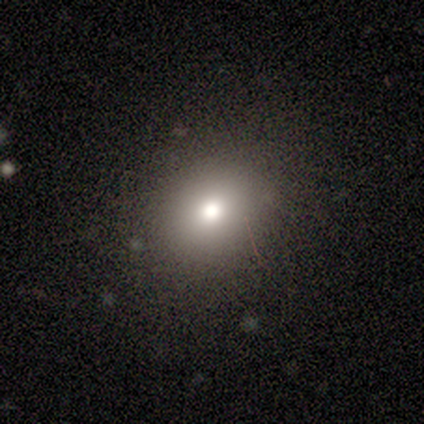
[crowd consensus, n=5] Overall: smooth (100%). How rounded: in between (60%; round 40%). Merging: none (100%).